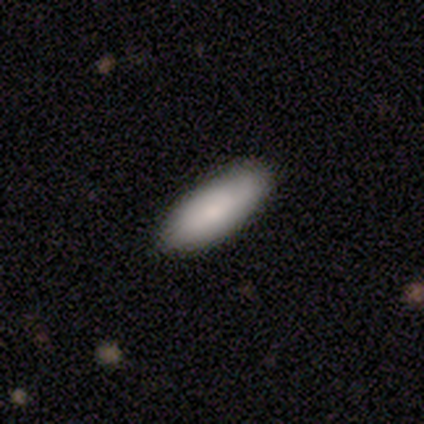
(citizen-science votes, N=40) Overall: smooth (80%). How rounded: in between (81%). Merging: none (64%).